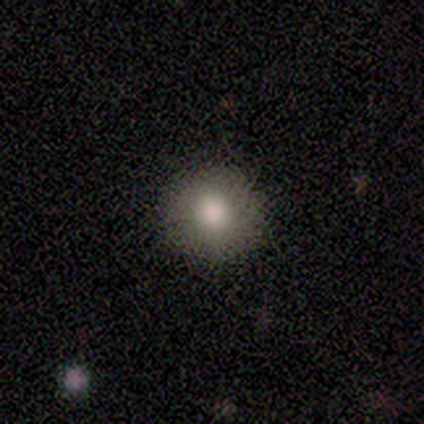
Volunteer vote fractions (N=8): Smooth or featured? smooth (88%)
How rounded? round (100%)
Merging? none (100%)